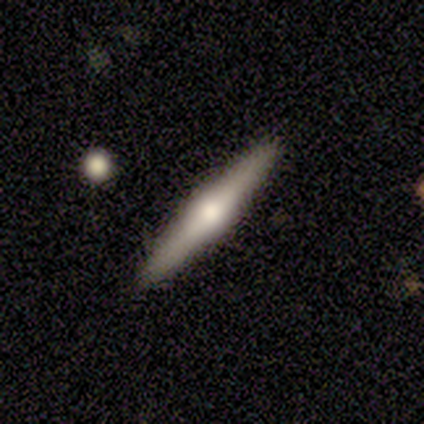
This is likely a featured or disk galaxy (60%). It is clearly viewed edge-on (100%). Edge-on bulge: clearly rounded (100%). Merging: clearly none (100%).